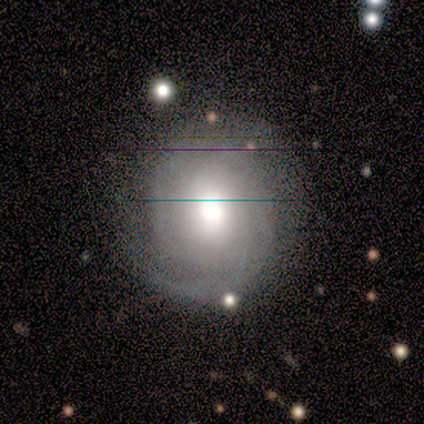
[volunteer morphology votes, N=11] Smooth or featured?
  - featured or disk: 82% *
  - smooth: 18%
  - star or artifact: 0%
Edge-on disk?
  - no: 100% *
  - yes: 0%
Bar?
  - no: 56% *
  - strong: 22%
  - weak: 22%
Spiral arms?
  - yes: 100% *
  - no: 0%
Spiral winding?
  - tight: 67% *
  - medium: 22%
  - loose: 11%
Spiral arm count?
  - can't tell: 56% *
  - 4: 22%
  - 1: 11%
  - 2: 11%
  - 3: 0%
  - more than 4: 0%
Bulge size?
  - moderate: 44% *
  - large: 33%
  - dominant: 11%
  - small: 11%
  - none: 0%
Merging?
  - none: 64% *
  - major disturbance: 27%
  - minor disturbance: 9%
  - merger: 0%